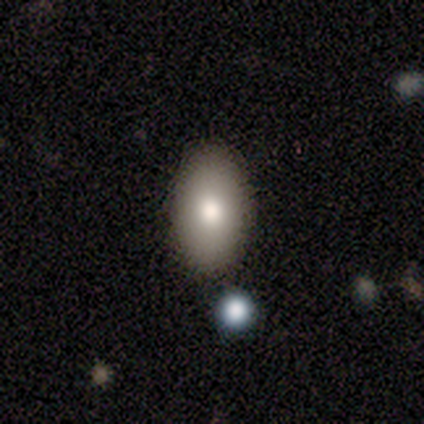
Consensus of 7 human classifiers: Morphology: type=smooth (71%); roundness=in between (100%); merging=none (100%).